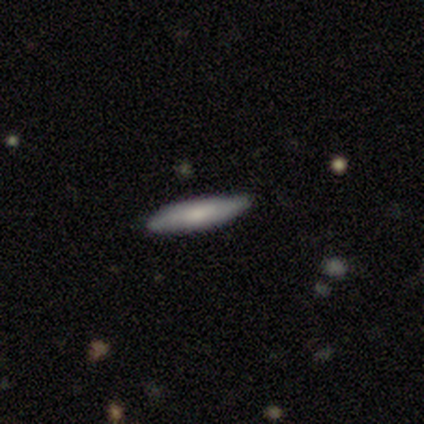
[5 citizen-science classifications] smooth_or_featured: smooth (p=0.80) [alt: featured or disk p=0.20]
how_rounded: cigar-shaped (p=1.00)
merging: none (p=1.00)